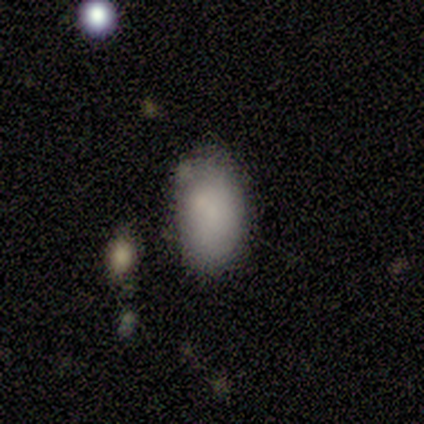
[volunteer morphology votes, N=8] Smooth or featured?
  - smooth: 75% *
  - featured or disk: 25%
  - star or artifact: 0%
How rounded?
  - in between: 100% *
  - round: 0%
  - cigar-shaped: 0%
Merging?
  - none: 62% *
  - merger: 25%
  - minor disturbance: 12%
  - major disturbance: 0%